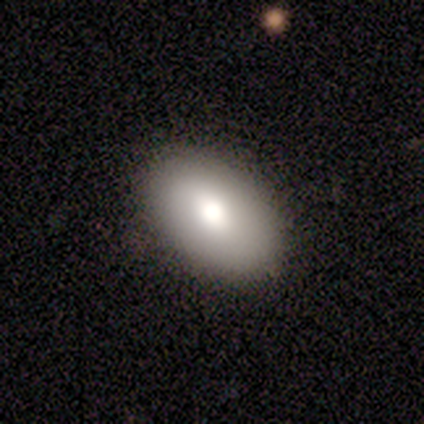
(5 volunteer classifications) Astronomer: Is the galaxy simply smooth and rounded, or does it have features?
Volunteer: smooth — 100%.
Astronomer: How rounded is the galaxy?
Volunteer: in between — 100%.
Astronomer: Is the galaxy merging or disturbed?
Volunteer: none — 100%.